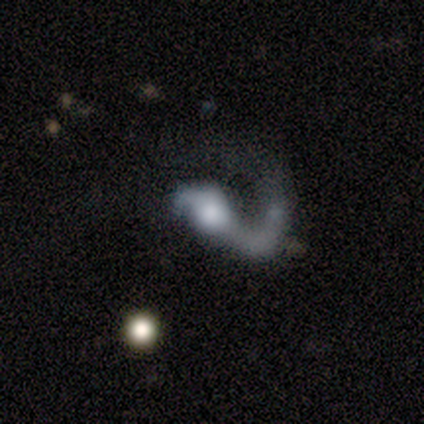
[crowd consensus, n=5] Smooth or featured?
  - featured or disk: 100% *
  - smooth: 0%
  - star or artifact: 0%
Edge-on disk?
  - no: 100% *
  - yes: 0%
Bar?
  - strong: 60% *
  - weak: 20%
  - no: 20%
Spiral arms?
  - yes: 100% *
  - no: 0%
Spiral winding?
  - medium: 60% *
  - loose: 40%
  - tight: 0%
Spiral arm count?
  - 1: 100% *
  - 2: 0%
  - 3: 0%
  - 4: 0%
  - more than 4: 0%
  - can't tell: 0%
Bulge size?
  - moderate: 80% *
  - small: 20%
  - dominant: 0%
  - large: 0%
  - none: 0%
Merging?
  - none: 40% * (tied)
  - major disturbance: 40% * (tied)
  - minor disturbance: 20%
  - merger: 0%